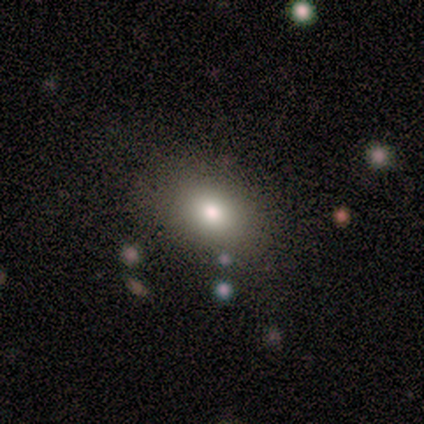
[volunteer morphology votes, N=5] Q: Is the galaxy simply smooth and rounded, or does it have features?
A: smooth — 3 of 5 (60%).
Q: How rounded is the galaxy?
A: in between — 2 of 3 (67%).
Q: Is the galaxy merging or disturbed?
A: none — 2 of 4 (50%, tied with minor disturbance).